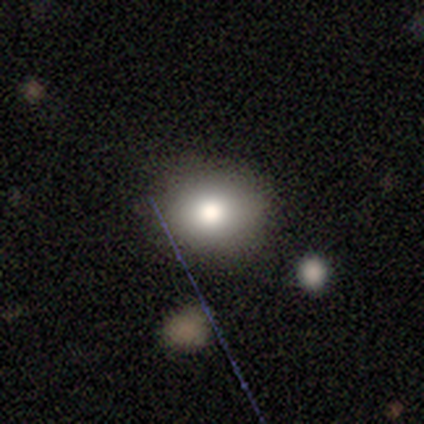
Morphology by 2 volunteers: Smooth or featured? 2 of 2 (100%) said smooth. How rounded? 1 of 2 (50%, tied with in between) said round. Merging? 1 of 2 (50%, tied with minor disturbance) said none.